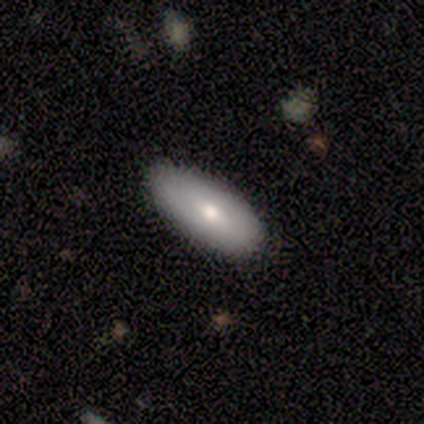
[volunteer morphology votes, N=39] This appears to be a smooth galaxy with no disk features (79%) that is in between round and cigar-shaped (90%). Merging: none (84%).